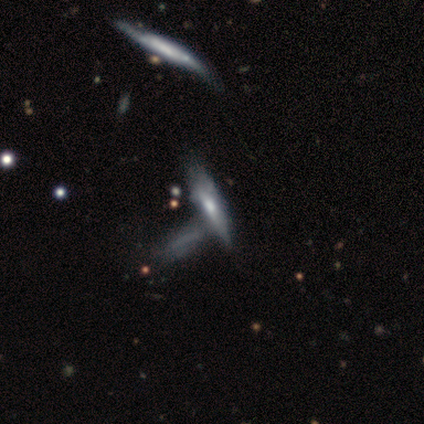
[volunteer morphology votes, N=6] smooth_or_featured: featured or disk (p=0.50) [alt: star or artifact p=0.33]
disk_edge_on: yes (p=0.67) [alt: no p=0.33]
edge_on_bulge: boxy (p=0.50) [tied with: rounded p=0.50]
merging: merger (p=0.50) [alt: minor disturbance p=0.25]